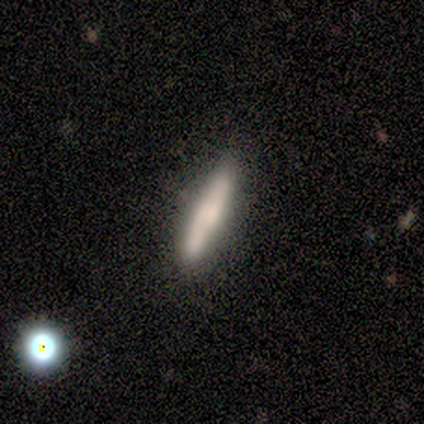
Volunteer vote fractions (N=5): Volunteers were most divided on "smooth or featured": smooth: 60%, featured or disk: 40%, star or artifact: 0%. More confident: how rounded — cigar-shaped (100%); merging — none (100%).